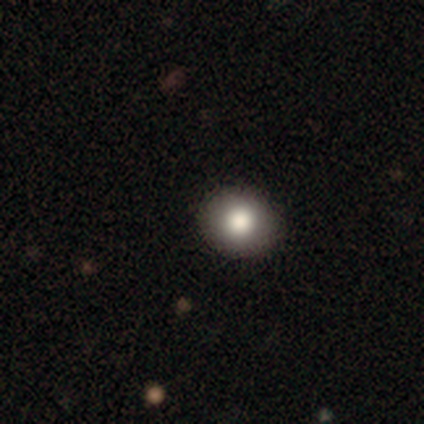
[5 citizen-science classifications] Smooth or featured? 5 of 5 (100%) said smooth. How rounded? 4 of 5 (80%) said round. Merging? 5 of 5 (100%) said none.